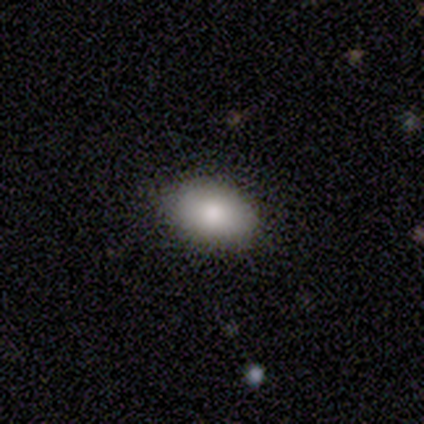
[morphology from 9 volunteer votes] Smooth or featured? 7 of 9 (78%) said smooth. How rounded? 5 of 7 (71%) said in between. Merging? 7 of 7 (100%) said none.